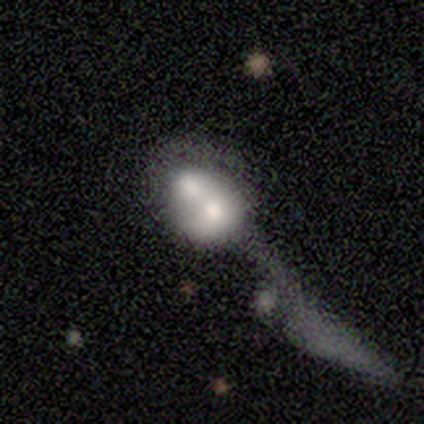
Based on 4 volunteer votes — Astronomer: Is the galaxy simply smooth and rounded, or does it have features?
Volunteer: featured or disk — 75%.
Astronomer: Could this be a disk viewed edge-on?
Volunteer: no — 67%.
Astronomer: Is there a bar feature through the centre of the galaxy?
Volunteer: no — 100%.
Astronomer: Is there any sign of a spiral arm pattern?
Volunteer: no — 100%.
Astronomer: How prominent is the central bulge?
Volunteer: moderate — 50%, tied with small at 50%.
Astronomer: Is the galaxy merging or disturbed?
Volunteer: merger — 100%.